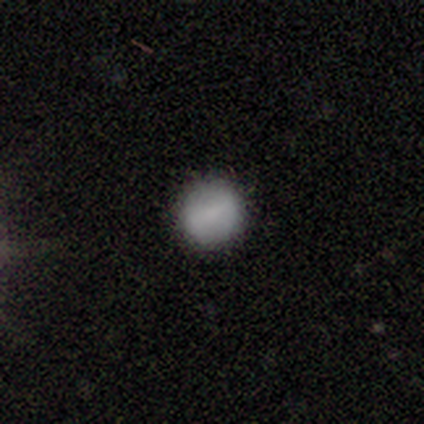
smooth-or-featured: smooth: 50% | featured or disk: 25% | star or artifact: 25%
  how-rounded: round: 100% | in between: 0% | cigar-shaped: 0%
  merging: none: 100% | minor disturbance: 0% | major disturbance: 0% | merger: 0%